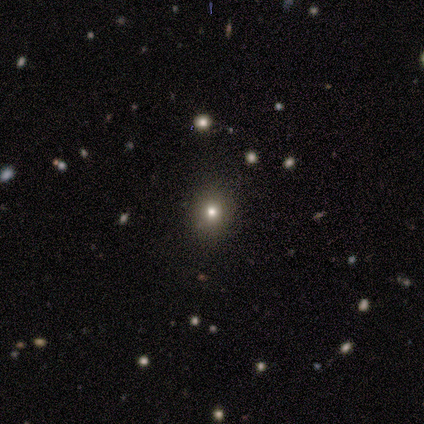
smooth-or-featured: star or artifact: 80% | smooth: 20% | featured or disk: 0%